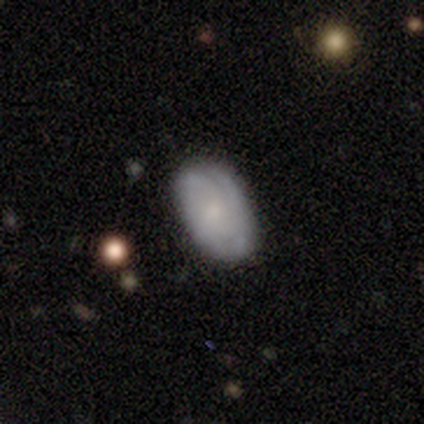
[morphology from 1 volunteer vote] A smooth galaxy with no disk features (100%) that is in between round and cigar-shaped (100%).

Vote fractions:
- Smooth or featured? smooth: 100% / featured or disk: 0% / star or artifact: 0%
- How rounded? in between: 100% / round: 0% / cigar-shaped: 0%
- Merging? none: 100% / minor disturbance: 0% / major disturbance: 0% / merger: 0%